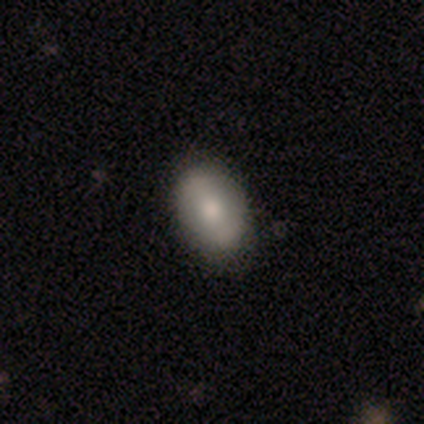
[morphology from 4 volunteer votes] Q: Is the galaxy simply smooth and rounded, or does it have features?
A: smooth — 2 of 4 (50%, tied with featured or disk).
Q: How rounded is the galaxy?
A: in between — 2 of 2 (100%).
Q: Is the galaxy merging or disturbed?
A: none — 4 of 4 (100%).